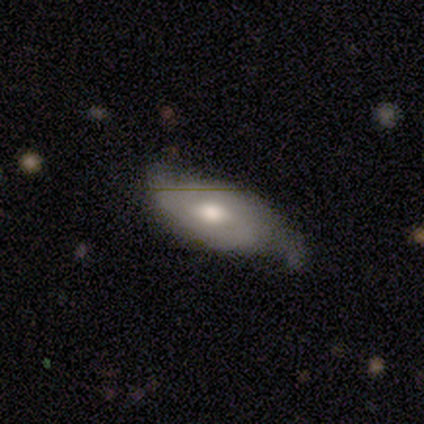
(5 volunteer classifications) Smooth or featured?
  - featured or disk: 100% *
  - smooth: 0%
  - star or artifact: 0%
Edge-on disk?
  - no: 80% *
  - yes: 20%
Bar?
  - no: 100% *
  - strong: 0%
  - weak: 0%
Spiral arms?
  - yes: 75% *
  - no: 25%
Spiral winding?
  - loose: 67% *
  - tight: 33%
  - medium: 0%
Spiral arm count?
  - 1: 67% *
  - 2: 33%
  - 3: 0%
  - 4: 0%
  - more than 4: 0%
  - can't tell: 0%
Bulge size?
  - moderate: 100% *
  - dominant: 0%
  - large: 0%
  - small: 0%
  - none: 0%
Merging?
  - minor disturbance: 60% *
  - none: 40%
  - major disturbance: 0%
  - merger: 0%